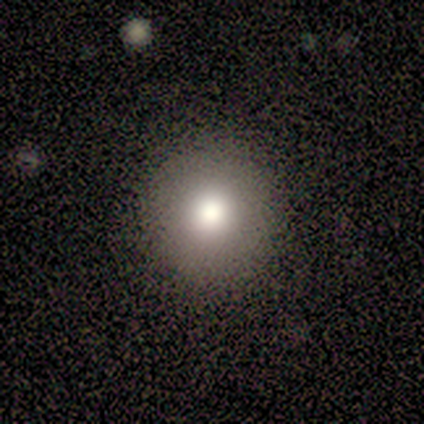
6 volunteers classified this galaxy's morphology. type=smooth (100%); roundness=round (83%); merging=none (100%).